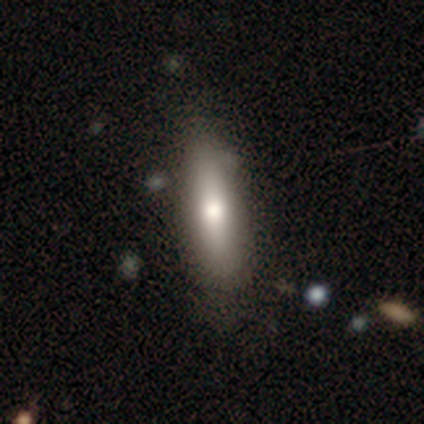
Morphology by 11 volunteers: Smooth or featured? 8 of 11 (73%) said smooth. How rounded? 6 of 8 (75%) said cigar-shaped. Merging? 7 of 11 (64%) said none.